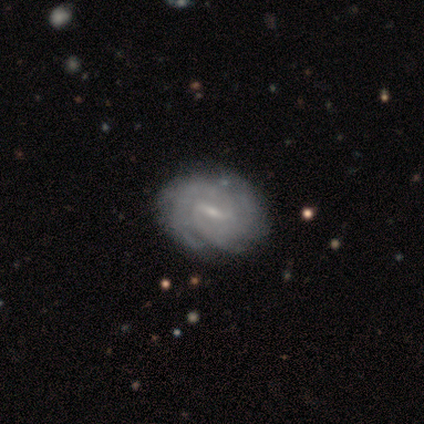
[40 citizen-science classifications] featured or disk 88%, smooth 10%, star or artifact 2%. Down the decision tree: edge-on disk — no (100%); bar — weak (57%); spiral arms — yes (97%); spiral arm count — 2 (44%); spiral winding — tight (65%); bulge size — small (71%); merging — none (69%).